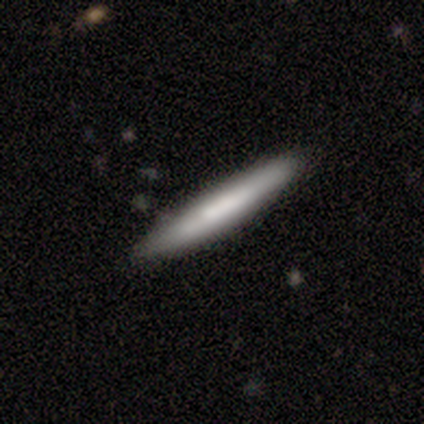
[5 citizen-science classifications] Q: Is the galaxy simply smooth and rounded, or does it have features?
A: smooth — 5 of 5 (100%).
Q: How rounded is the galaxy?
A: cigar-shaped — 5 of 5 (100%).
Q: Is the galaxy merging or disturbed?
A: none — 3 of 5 (60%).